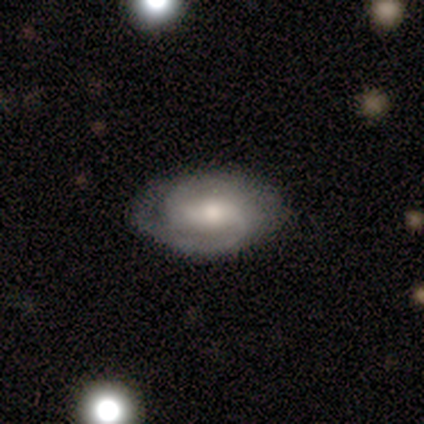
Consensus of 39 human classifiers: A featured or disk galaxy (85%) with a strong bar (38%), 2 (90%) tight (57%) spiral arms (94%) and a moderate central bulge (66%).

Vote fractions:
- Smooth or featured? featured or disk: 85% / smooth: 13% / star or artifact: 3%
- Edge-on disk? no: 97% / yes: 3%
- Bar? strong: 38% / weak: 34% / no: 28%
- Spiral arms? yes: 94% / no: 6%
- Spiral winding? tight: 57% / medium: 33% / loose: 10%
- Spiral arm count? 2: 90% / can't tell: 10% / 1: 0% / 3: 0% / 4: 0% / more than 4: 0%
- Bulge size? moderate: 66% / small: 22% / large: 12% / dominant: 0% / none: 0%
- Merging? none: 79% / minor disturbance: 16% / major disturbance: 5% / merger: 0%